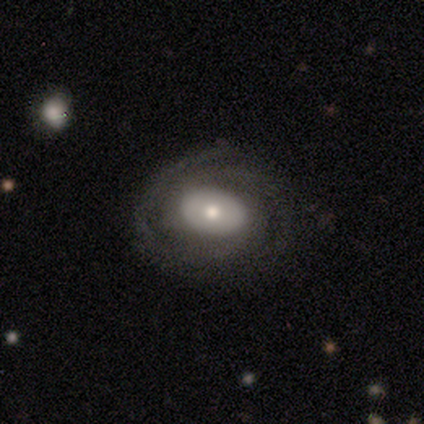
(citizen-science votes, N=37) smooth-or-featured: featured or disk: 76% | smooth: 19% | star or artifact: 5%
  disk-edge-on: no: 93% | yes: 7%
    bar: no: 69% | weak: 27% | strong: 4%
    has-spiral-arms: yes: 85% | no: 15%
      spiral-winding: tight: 82% | medium: 14% | loose: 5%
      spiral-arm-count: 2: 32% (tied) | can't tell: 32% (tied) | 3: 27% | 4: 9% | 1: 0% | more than 4: 0%
    bulge-size: moderate: 54% | small: 35% | large: 8% | dominant: 4% | none: 0%
  merging: none: 71% | minor disturbance: 17% | major disturbance: 11% | merger: 0%